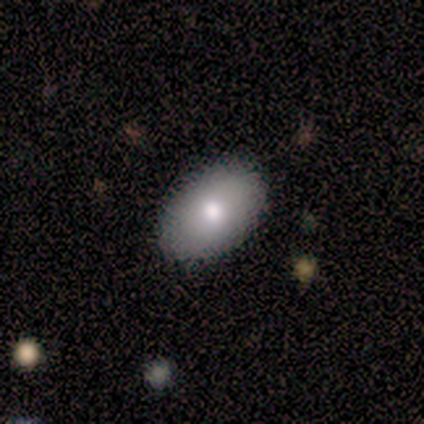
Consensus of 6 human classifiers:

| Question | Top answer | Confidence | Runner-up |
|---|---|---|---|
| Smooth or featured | smooth | 83% | star or artifact (17%) |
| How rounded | in between | 100% | — |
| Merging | none | 100% | — |